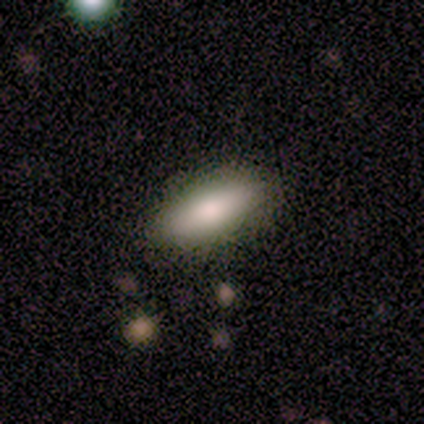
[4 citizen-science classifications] A smooth galaxy with no disk features (100%) that is in between round and cigar-shaped (50%, tied with cigar-shaped).

Vote fractions:
- Smooth or featured? smooth: 100% / featured or disk: 0% / star or artifact: 0%
- How rounded? in between: 50% (tied) / cigar-shaped: 50% (tied) / round: 0%
- Merging? none: 100% / minor disturbance: 0% / major disturbance: 0% / merger: 0%